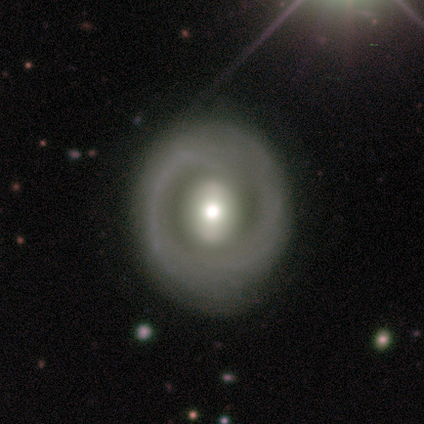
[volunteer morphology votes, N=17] Smooth or featured?
  - featured or disk: 76% *
  - smooth: 24%
  - star or artifact: 0%
Edge-on disk?
  - no: 100% *
  - yes: 0%
Bar?
  - no: 46% *
  - strong: 38%
  - weak: 15%
Spiral arms?
  - no: 69% *
  - yes: 31%
Bulge size?
  - moderate: 85% *
  - large: 15%
  - dominant: 0%
  - small: 0%
  - none: 0%
Merging?
  - none: 94% *
  - major disturbance: 6%
  - minor disturbance: 0%
  - merger: 0%